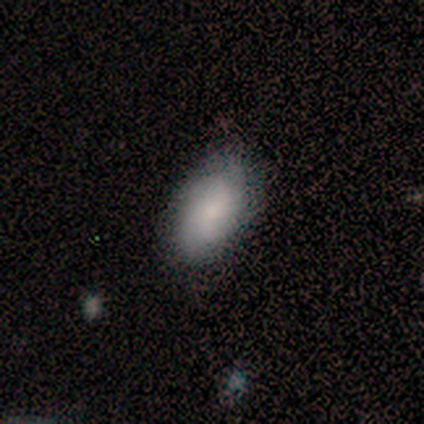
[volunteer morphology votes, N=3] smooth-or-featured: smooth: 67% | featured or disk: 33% | star or artifact: 0%
  how-rounded: in between: 100% | round: 0% | cigar-shaped: 0%
  merging: none: 67% | minor disturbance: 33% | major disturbance: 0% | merger: 0%